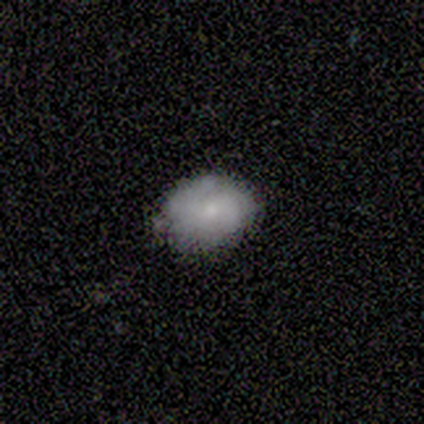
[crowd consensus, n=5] smooth 100%, featured or disk 0%, star or artifact 0%. Down the decision tree: how rounded — in between (60%); merging — none (100%).